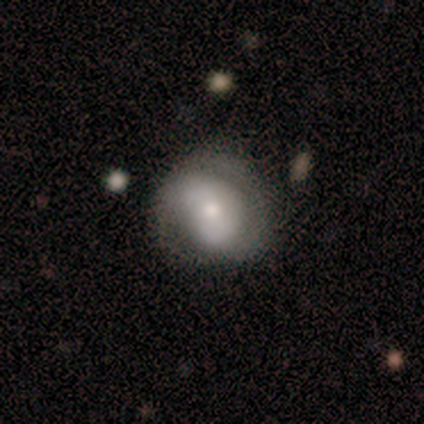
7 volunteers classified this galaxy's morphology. Smooth or featured? 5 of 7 (71%) said featured or disk. Edge-on disk? 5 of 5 (100%) said no. Bar? 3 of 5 (60%) said no. Spiral arms? 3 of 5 (60%) said yes. Spiral winding? 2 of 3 (67%) said tight. Spiral arm count? 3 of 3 (100%) said 2. Bulge size? 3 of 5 (60%) said small. Merging? 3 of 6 (50%, tied with minor disturbance) said none.